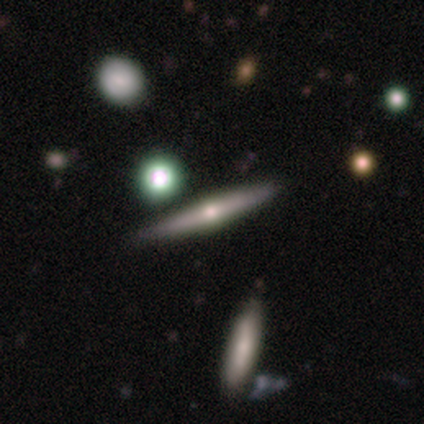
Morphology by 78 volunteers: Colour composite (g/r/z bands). It shows a featured or disk galaxy (76%) viewed edge-on (95%) with a rounded central bulge (95%). Merging: none (43%).